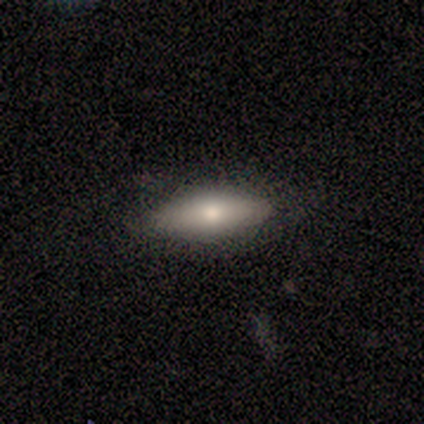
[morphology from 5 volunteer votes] This is likely a smooth galaxy (60%). How rounded: clearly in between (100%). Merging: clearly none (100%).